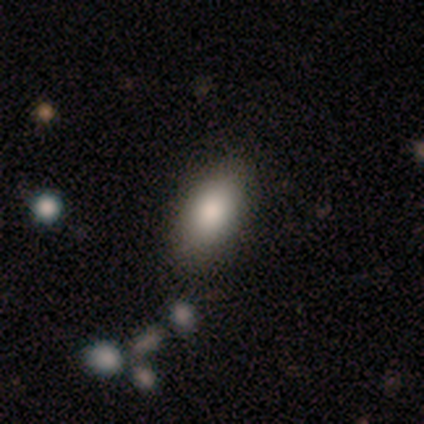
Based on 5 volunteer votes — Volunteers were most divided on "merging": none: 80%, minor disturbance: 20%, major disturbance: 0%, merger: 0%. More confident: smooth or featured — smooth (100%); how rounded — in between (100%).